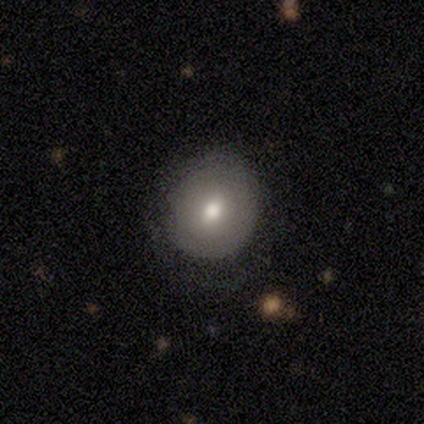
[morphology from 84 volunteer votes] smooth-or-featured: smooth: 67% | featured or disk: 21% | star or artifact: 12%
  how-rounded: round: 79% | in between: 20% | cigar-shaped: 2%
  merging: none: 78% | minor disturbance: 15% | major disturbance: 5% | merger: 1%